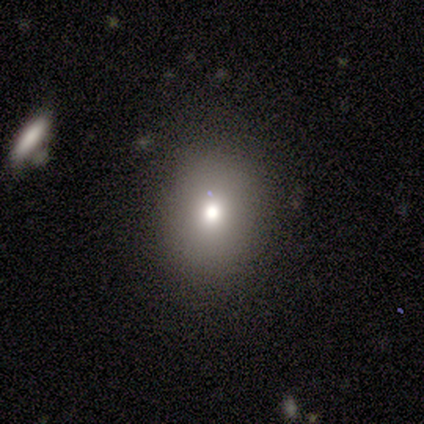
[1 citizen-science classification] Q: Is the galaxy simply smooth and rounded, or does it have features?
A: featured or disk — 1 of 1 (100%).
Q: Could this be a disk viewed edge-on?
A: no — 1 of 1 (100%).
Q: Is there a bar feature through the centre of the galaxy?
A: no — 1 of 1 (100%).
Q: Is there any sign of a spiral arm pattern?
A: no — 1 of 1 (100%).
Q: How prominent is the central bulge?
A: moderate — 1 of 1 (100%).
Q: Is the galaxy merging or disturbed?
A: none — 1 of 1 (100%).